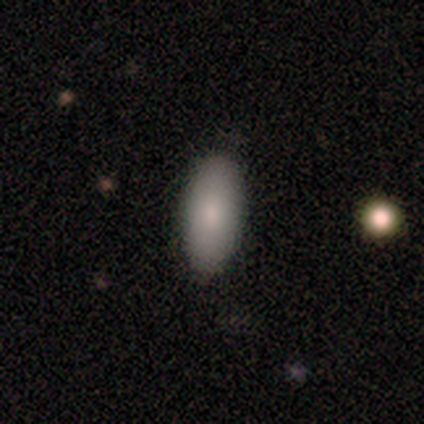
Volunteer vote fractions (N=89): Smooth or featured?
  - smooth: 84% *
  - featured or disk: 9%
  - star or artifact: 7%
How rounded?
  - in between: 87% *
  - cigar-shaped: 12%
  - round: 1%
Merging?
  - none: 80% *
  - minor disturbance: 14%
  - major disturbance: 5%
  - merger: 1%